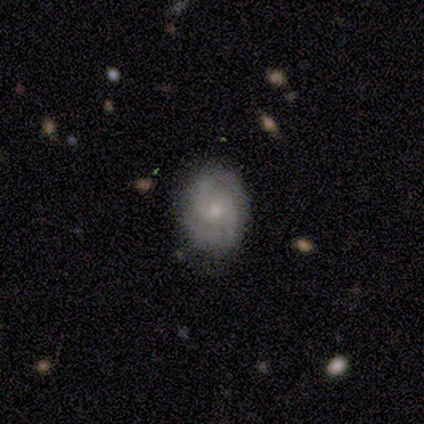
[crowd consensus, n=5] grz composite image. It shows a featured or disk galaxy (80%) with a weak bar (50%, tied with no), 2 (100%) tight (75%) spiral arms (100%) and a small central bulge (75%). Merging: none (80%).